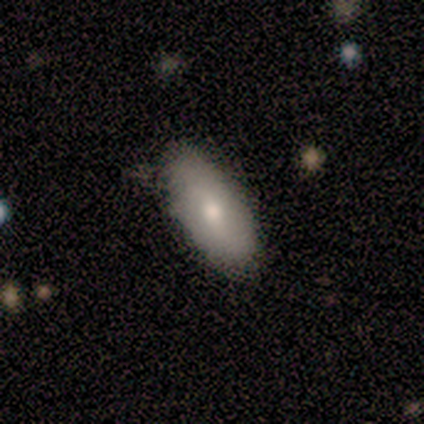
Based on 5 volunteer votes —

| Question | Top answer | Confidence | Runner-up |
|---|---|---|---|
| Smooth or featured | smooth | 60% | featured or disk (40%) |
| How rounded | in between | 100% | — |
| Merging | none | 80% | minor disturbance (20%) |